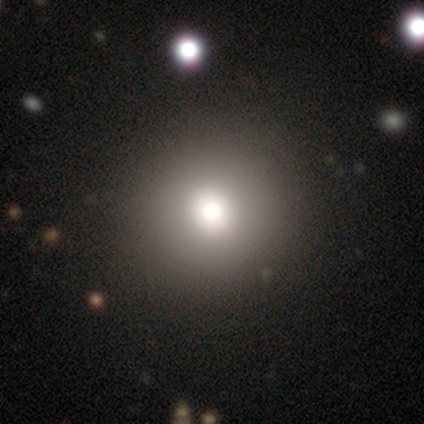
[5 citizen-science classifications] A smooth galaxy with no disk features (100%) that is round (60%).

Vote fractions:
- Smooth or featured? smooth: 100% / featured or disk: 0% / star or artifact: 0%
- How rounded? round: 60% / in between: 40% / cigar-shaped: 0%
- Merging? none: 100% / minor disturbance: 0% / major disturbance: 0% / merger: 0%